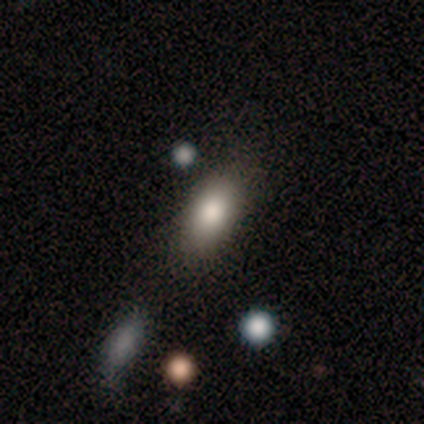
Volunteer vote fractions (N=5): A smooth galaxy with no disk features (100%) that is in between round and cigar-shaped (100%).

Vote fractions:
- Smooth or featured? smooth: 100% / featured or disk: 0% / star or artifact: 0%
- How rounded? in between: 100% / round: 0% / cigar-shaped: 0%
- Merging? none: 60% / minor disturbance: 40% / major disturbance: 0% / merger: 0%